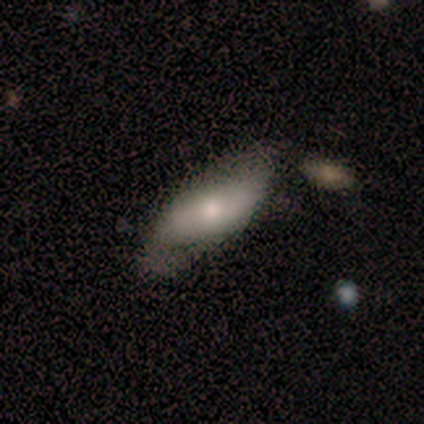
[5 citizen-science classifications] featured or disk 60%, smooth 40%, star or artifact 0%. Down the decision tree: edge-on disk — no (67%); bar — weak (50%, tied with no); spiral arms — yes (50%, tied with no); spiral arm count — 2 (100%); spiral winding — medium (100%); bulge size — large (50%, tied with moderate); merging — minor disturbance (60%).